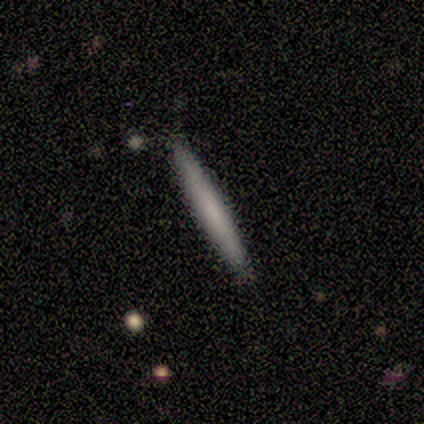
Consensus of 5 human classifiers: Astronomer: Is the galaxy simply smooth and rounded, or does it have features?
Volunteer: smooth — 100%.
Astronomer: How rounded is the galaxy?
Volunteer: cigar-shaped — 100%.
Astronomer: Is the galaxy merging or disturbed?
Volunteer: none — 100%.